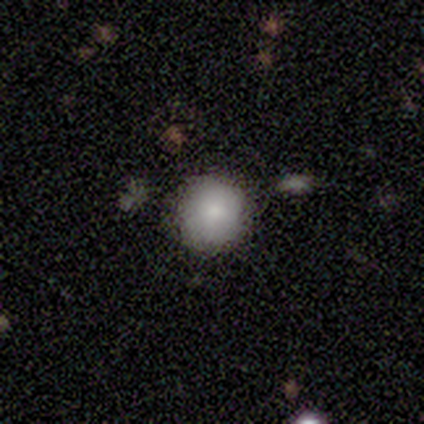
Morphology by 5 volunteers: Smooth or featured?
  - smooth: 100% *
  - featured or disk: 0%
  - star or artifact: 0%
How rounded?
  - round: 100% *
  - in between: 0%
  - cigar-shaped: 0%
Merging?
  - none: 80% *
  - minor disturbance: 20%
  - major disturbance: 0%
  - merger: 0%